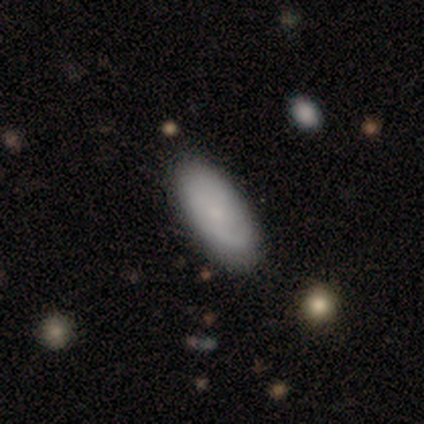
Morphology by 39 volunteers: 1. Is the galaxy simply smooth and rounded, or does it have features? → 69% smooth, 31% featured or disk, 0% star or artifact.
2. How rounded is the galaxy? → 96% in between, 4% cigar-shaped, 0% round.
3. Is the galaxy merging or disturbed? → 62% none, 13% minor disturbance, 3% merger, 0% major disturbance.